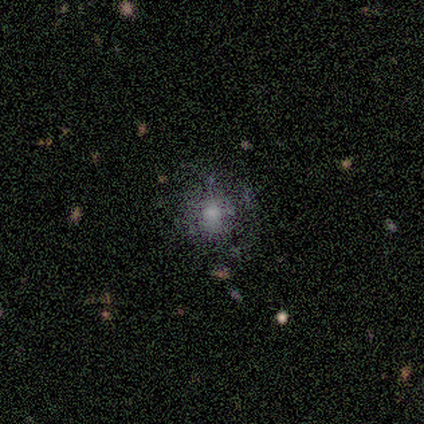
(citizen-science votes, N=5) Smooth or featured?
  - smooth: 40% * (tied)
  - star or artifact: 40% * (tied)
  - featured or disk: 20%
How rounded?
  - round: 100% *
  - in between: 0%
  - cigar-shaped: 0%
Merging?
  - none: 100% *
  - minor disturbance: 0%
  - major disturbance: 0%
  - merger: 0%